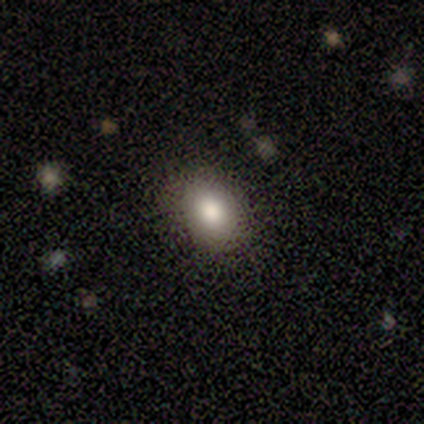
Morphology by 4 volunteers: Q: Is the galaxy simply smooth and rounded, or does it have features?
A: smooth — 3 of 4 (75%).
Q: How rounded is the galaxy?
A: round — 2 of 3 (67%).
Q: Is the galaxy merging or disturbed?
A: none — 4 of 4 (100%).